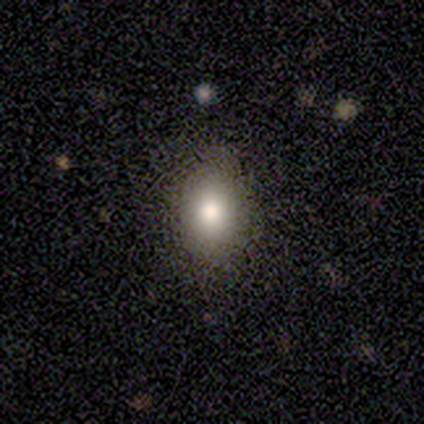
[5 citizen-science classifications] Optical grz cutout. It shows a smooth galaxy with no disk features (100%) that is in between round and cigar-shaped (60%). Merging: none (80%).